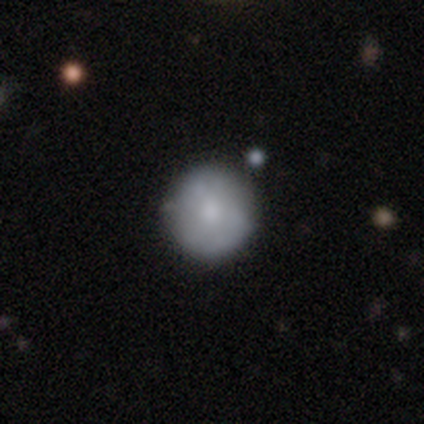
Q: Smooth or featured?
A: featured or disk (60%); runner-up: smooth (40%)
Q: Edge-on disk?
A: no (100%)
Q: Bar?
A: no (100%)
Q: Spiral arms?
A: no (100%)
Q: Bulge size?
A: small (67%); runner-up: moderate (33%)
Q: Merging?
A: none (80%); runner-up: major disturbance (20%)